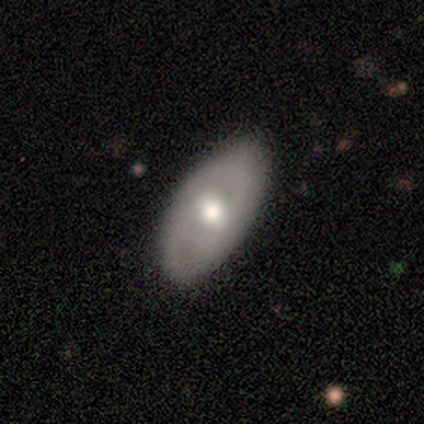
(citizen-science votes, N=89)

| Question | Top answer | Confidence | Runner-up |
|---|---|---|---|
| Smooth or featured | featured or disk | 48% | smooth (46%) |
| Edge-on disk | no | 84% | yes (16%) |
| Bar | weak | 42% | tied: no (42%) |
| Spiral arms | yes | 58% | no (42%) |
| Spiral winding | medium | 48% | tight (33%) |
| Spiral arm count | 2 | 81% | can't tell (10%) |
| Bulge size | moderate | 64% | small (22%) |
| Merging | none | 77% | minor disturbance (20%) |